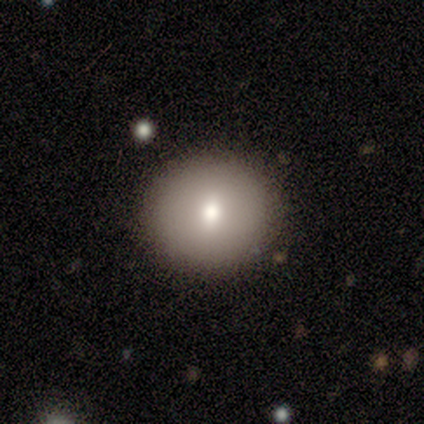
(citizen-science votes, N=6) This appears to be a smooth galaxy with no disk features (83%) that is round (100%). Merging: none (100%).